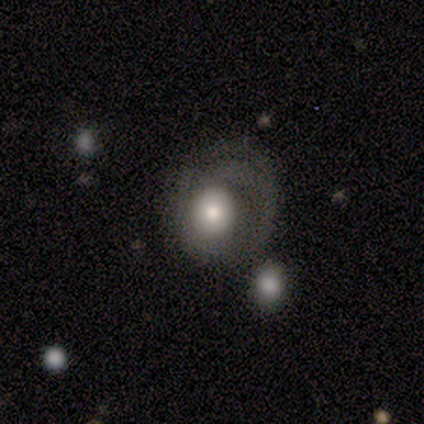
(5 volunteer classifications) Q: Smooth or featured?
A: smooth (60%); runner-up: featured or disk (40%)
Q: How rounded?
A: round (67%); runner-up: in between (33%)
Q: Merging?
A: major disturbance (80%); runner-up: minor disturbance (20%)